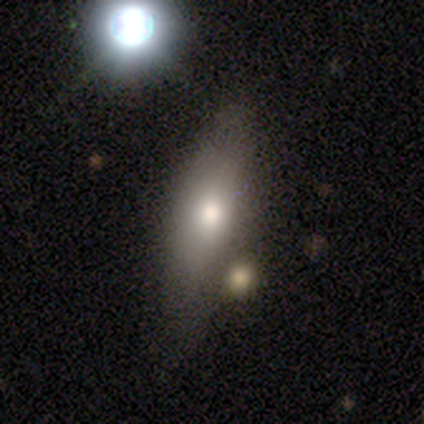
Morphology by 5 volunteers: smooth-or-featured: featured or disk: 60% | smooth: 20% | star or artifact: 20%
  disk-edge-on: no: 67% | yes: 33%
    bar: no: 100% | strong: 0% | weak: 0%
    has-spiral-arms: no: 100% | yes: 0%
    bulge-size: moderate: 100% | dominant: 0% | large: 0% | small: 0% | none: 0%
  merging: none: 75% | minor disturbance: 25% | major disturbance: 0% | merger: 0%